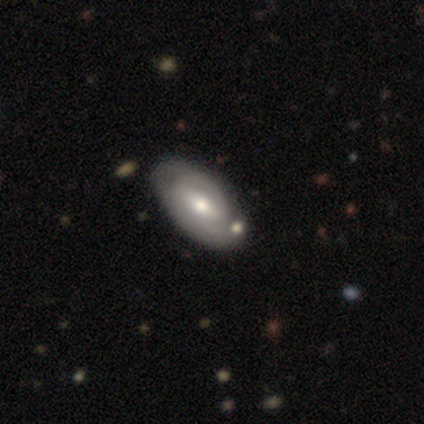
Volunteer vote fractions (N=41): A featured or disk galaxy (56%) with a strong bar (38%), 2 (57%) tight (79%) spiral arms (67%) and a moderate central bulge (62%). Merging: none (70%).